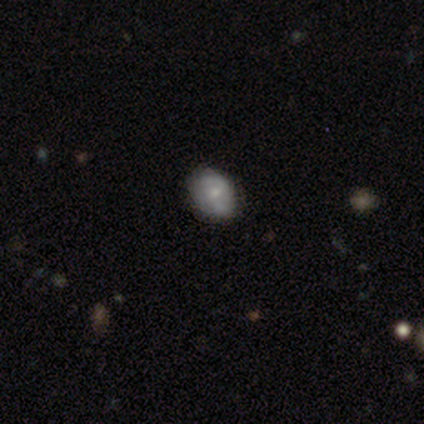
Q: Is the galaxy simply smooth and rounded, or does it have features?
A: smooth — 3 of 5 (60%).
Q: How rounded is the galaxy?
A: in between — 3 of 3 (100%).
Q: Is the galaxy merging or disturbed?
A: none — 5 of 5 (100%).